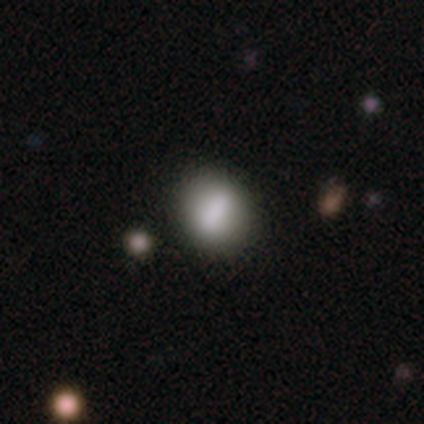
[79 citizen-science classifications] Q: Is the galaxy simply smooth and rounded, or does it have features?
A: smooth — 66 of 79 (84%).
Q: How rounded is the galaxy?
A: round — 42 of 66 (64%).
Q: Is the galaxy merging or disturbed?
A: none — 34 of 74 (46%).